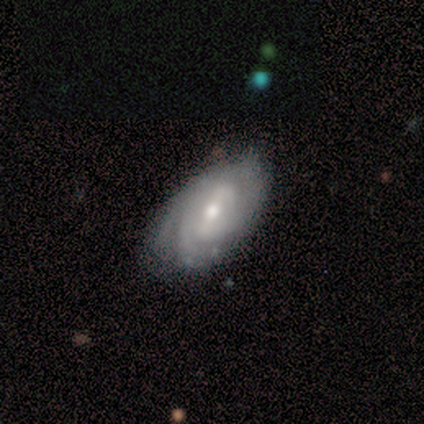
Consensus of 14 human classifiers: A featured or disk galaxy (86%) with a weak bar (73%), 3 (45%) tight (64%) spiral arms (100%) and a moderate central bulge (45%). Merging: none (77%).